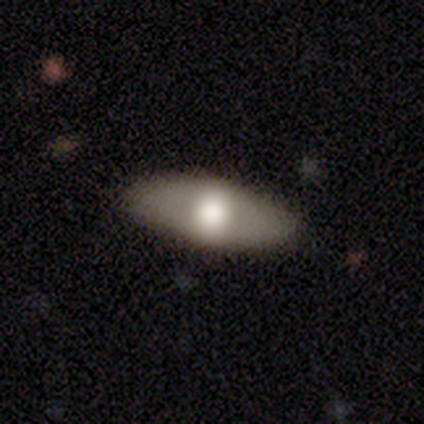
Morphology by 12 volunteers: Smooth or featured?
  - smooth: 67% *
  - featured or disk: 25%
  - star or artifact: 8%
How rounded?
  - in between: 100% *
  - round: 0%
  - cigar-shaped: 0%
Merging?
  - none: 91% *
  - minor disturbance: 9%
  - major disturbance: 0%
  - merger: 0%